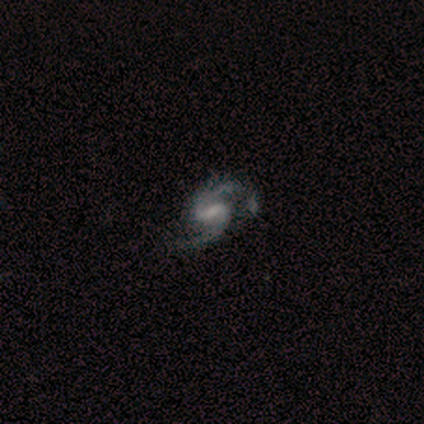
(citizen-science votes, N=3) This appears to be a featured or disk galaxy (100%) with a strong bar (67%), 2 (67%) loose (67%) spiral arms (100%) and a moderate central bulge (33%, tied with small and none). Merging: none (67%).